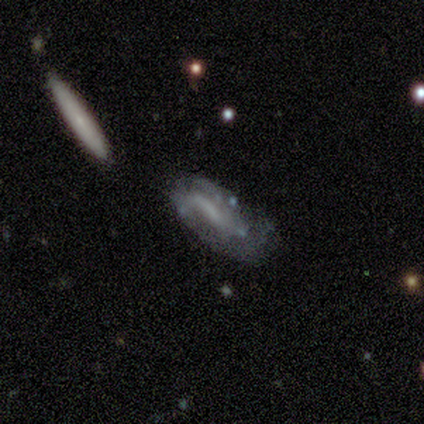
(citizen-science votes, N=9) This is marginally a smooth galaxy (44%, tied with featured or disk). How rounded: clearly in between (100%). Merging: marginally minor disturbance (38%).